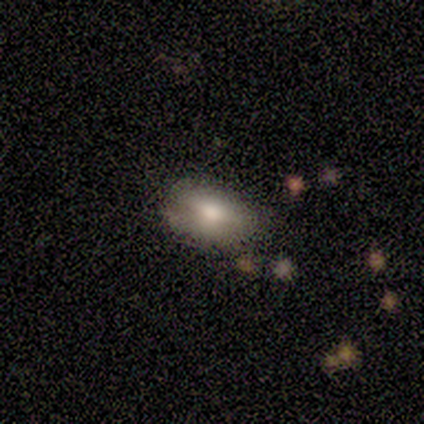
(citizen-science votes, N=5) Smooth or featured? 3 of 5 (60%) said smooth. How rounded? 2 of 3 (67%) said in between. Merging? 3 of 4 (75%) said none.